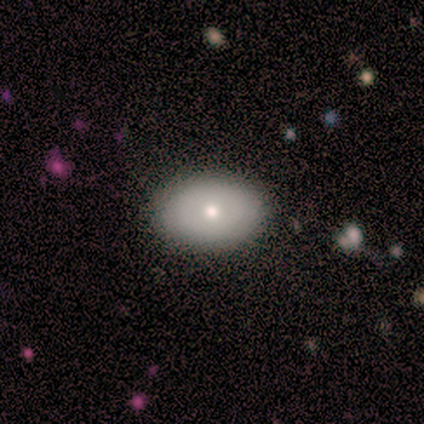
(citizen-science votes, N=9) smooth 78%, featured or disk 11%, star or artifact 11%. Down the decision tree: how rounded — in between (86%); merging — none (100%).